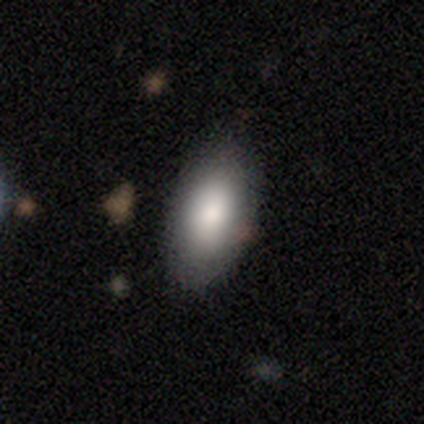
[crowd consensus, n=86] Smooth or featured: smooth — 85% (star or artifact — 12%)
How rounded: in between — 89% (round — 5%)
Merging: none — 88% (minor disturbance — 9%)